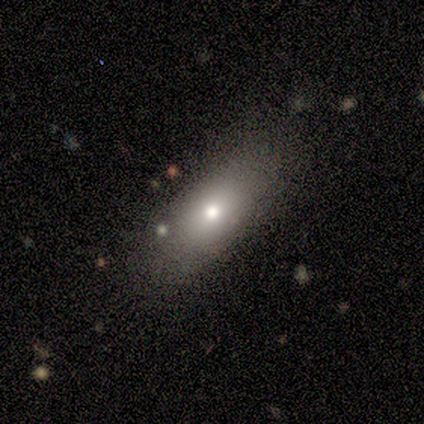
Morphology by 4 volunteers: This appears to be a smooth galaxy with no disk features (50%, tied with featured or disk) that is in between round and cigar-shaped (100%). Merging: none (50%, tied with minor disturbance).